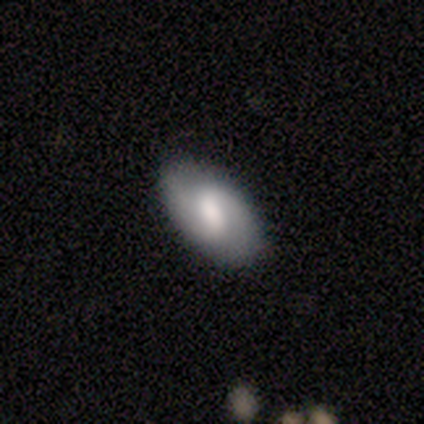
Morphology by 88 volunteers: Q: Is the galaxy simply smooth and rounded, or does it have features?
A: featured or disk — 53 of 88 (60%).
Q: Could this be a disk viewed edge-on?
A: no — 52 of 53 (98%).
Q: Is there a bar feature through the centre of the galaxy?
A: weak — 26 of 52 (50%).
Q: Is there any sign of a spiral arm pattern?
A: yes — 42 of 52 (81%).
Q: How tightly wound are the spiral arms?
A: loose — 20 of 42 (48%).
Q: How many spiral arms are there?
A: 2 — 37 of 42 (88%).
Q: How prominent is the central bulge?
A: moderate — 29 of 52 (56%).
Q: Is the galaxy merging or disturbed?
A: none — 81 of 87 (93%).